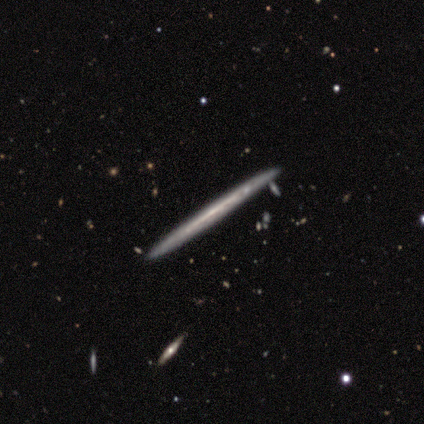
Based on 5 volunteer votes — Overall: featured or disk (80%). Edge-on disk: yes (75%). Edge-on bulge: none (100%). Merging: none (80%).